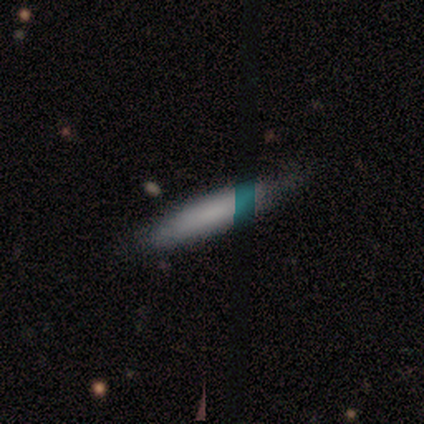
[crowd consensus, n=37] This appears to be a smooth galaxy with no disk features (78%) that is cigar-shaped (86%). Merging: none (67%).